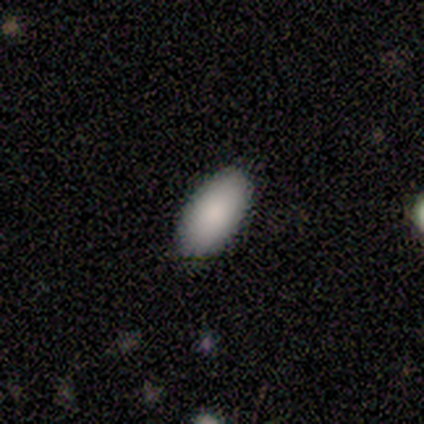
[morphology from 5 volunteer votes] This is clearly a smooth galaxy (100%). How rounded: clearly in between (80%). Merging: likely none (60%).